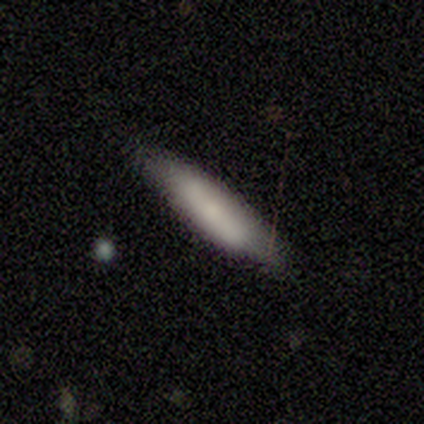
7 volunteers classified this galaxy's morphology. Smooth or featured?
  - smooth: 100% *
  - featured or disk: 0%
  - star or artifact: 0%
How rounded?
  - cigar-shaped: 86% *
  - in between: 14%
  - round: 0%
Merging?
  - none: 71% *
  - minor disturbance: 14%
  - major disturbance: 14%
  - merger: 0%